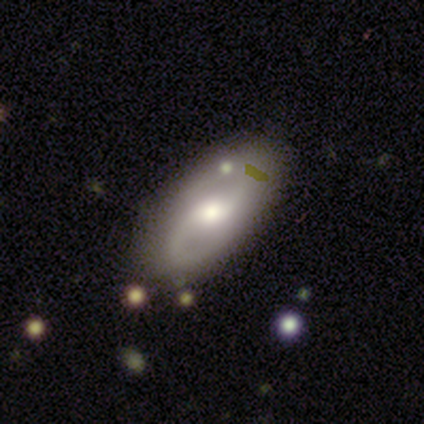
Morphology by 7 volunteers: This is possibly a featured or disk galaxy (57%). It is likely not viewed edge-on (75%). Bar: likely weak (67%). Spiral arm pattern: clearly yes (100%). Spiral arm count: clearly 2 (100%). Spiral winding: likely medium (67%). Central bulge: likely moderate (67%). Merging: clearly none (83%).